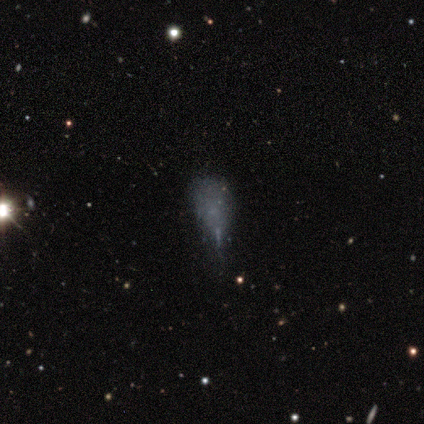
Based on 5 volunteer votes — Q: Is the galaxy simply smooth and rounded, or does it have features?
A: smooth — 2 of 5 (40%, tied with featured or disk).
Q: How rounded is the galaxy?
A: in between — 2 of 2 (100%).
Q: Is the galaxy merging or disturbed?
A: major disturbance — 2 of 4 (50%).